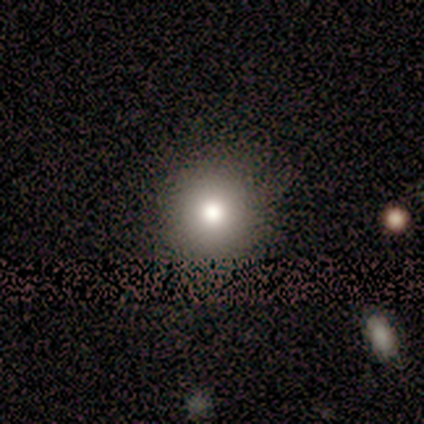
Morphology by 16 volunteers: smooth 88%, featured or disk 12%, star or artifact 0%. Down the decision tree: how rounded — round (86%); merging — none (94%).